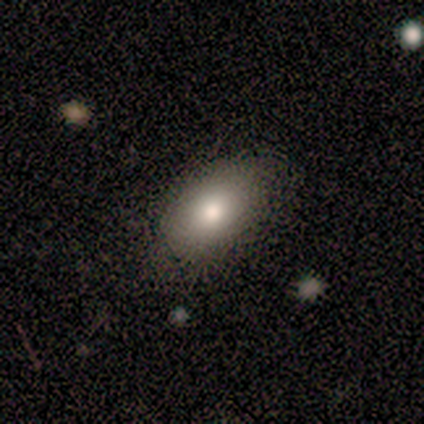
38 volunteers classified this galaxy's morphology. Smooth or featured? smooth (82%)
How rounded? in between (87%)
Merging? none (69%)